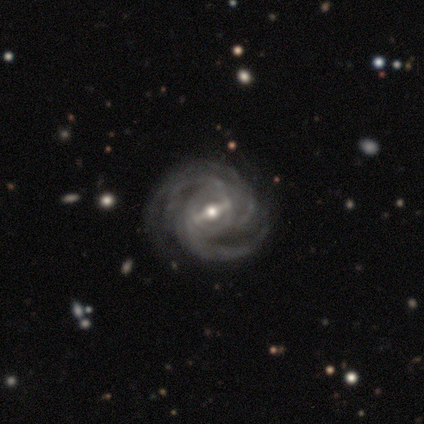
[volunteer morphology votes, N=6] This is clearly a featured or disk galaxy (100%). It is clearly not viewed edge-on (100%). Bar: likely strong (67%). Spiral arm pattern: clearly yes (100%). Spiral arm count: possibly 2 (50%). Spiral winding: clearly medium (83%). Central bulge: possibly moderate (50%, tied with small). Merging: clearly none (83%).